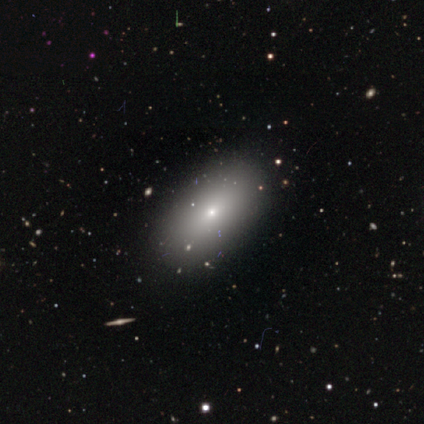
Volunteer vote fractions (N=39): Smooth or featured? 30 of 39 (77%) said smooth. How rounded? 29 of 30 (97%) said in between. Merging? 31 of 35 (89%) said none.